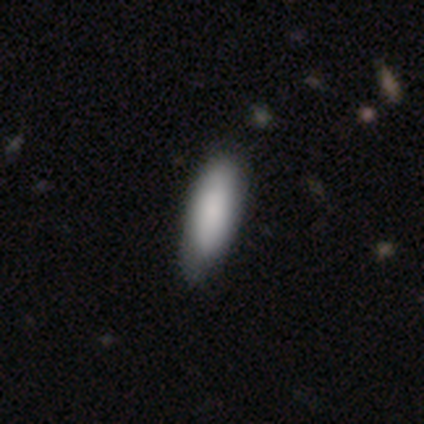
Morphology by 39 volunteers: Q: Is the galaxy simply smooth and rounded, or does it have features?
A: smooth — 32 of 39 (82%).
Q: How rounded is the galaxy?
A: in between — 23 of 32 (72%).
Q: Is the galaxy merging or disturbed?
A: none — 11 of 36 (31%, tied with minor disturbance).